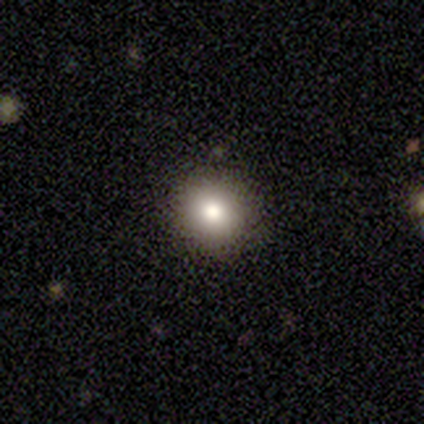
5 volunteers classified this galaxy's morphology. Smooth or featured? 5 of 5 (100%) said smooth. How rounded? 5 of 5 (100%) said round. Merging? 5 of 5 (100%) said none.